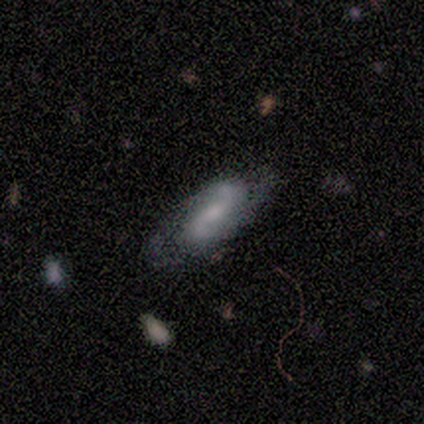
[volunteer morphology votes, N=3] Smooth or featured? 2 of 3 (67%) said featured or disk. Edge-on disk? 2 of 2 (100%) said no. Bar? 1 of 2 (50%, tied with no) said weak. Spiral arms? 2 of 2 (100%) said yes. Spiral winding? 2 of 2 (100%) said loose. Spiral arm count? 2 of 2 (100%) said 2. Bulge size? 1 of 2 (50%, tied with none) said moderate. Merging? 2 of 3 (67%) said none.